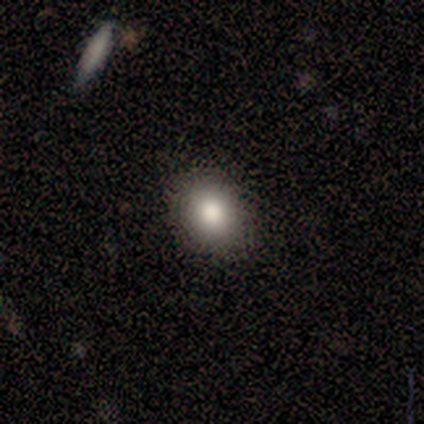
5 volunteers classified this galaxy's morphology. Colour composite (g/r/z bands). It shows a smooth galaxy with no disk features (100%) that is in between round and cigar-shaped (60%). Merging: none (80%).